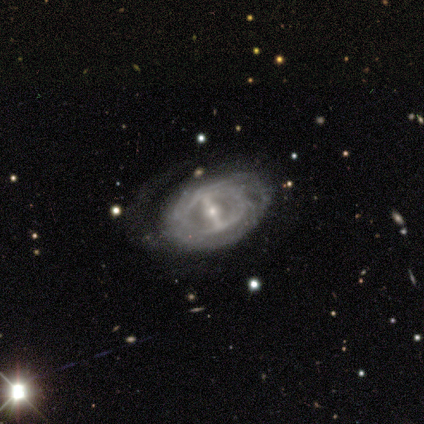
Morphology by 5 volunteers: Smooth or featured? featured or disk (100%)
Edge-on disk? no (100%)
Bar? strong (100%)
Spiral arms? no (60%)
Bulge size? small (60%)
Merging? none (100%)